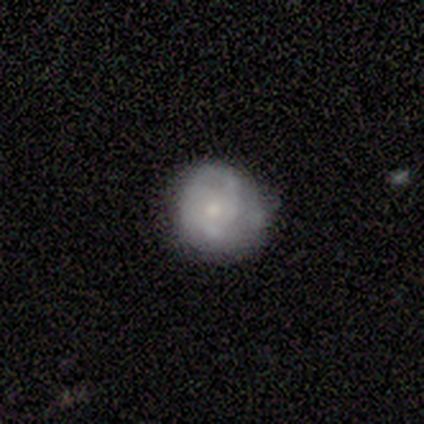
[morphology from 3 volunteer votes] Smooth or featured?
  - featured or disk: 67% *
  - smooth: 33%
  - star or artifact: 0%
Edge-on disk?
  - no: 100% *
  - yes: 0%
Bar?
  - no: 100% *
  - strong: 0%
  - weak: 0%
Spiral arms?
  - yes: 50% * (tied)
  - no: 50% * (tied)
Spiral winding?
  - tight: 100% *
  - medium: 0%
  - loose: 0%
Spiral arm count?
  - 1: 100% *
  - 2: 0%
  - 3: 0%
  - 4: 0%
  - more than 4: 0%
  - can't tell: 0%
Bulge size?
  - moderate: 50% * (tied)
  - small: 50% * (tied)
  - dominant: 0%
  - large: 0%
  - none: 0%
Merging?
  - none: 33% * (tied)
  - minor disturbance: 33% * (tied)
  - major disturbance: 33% * (tied)
  - merger: 0%